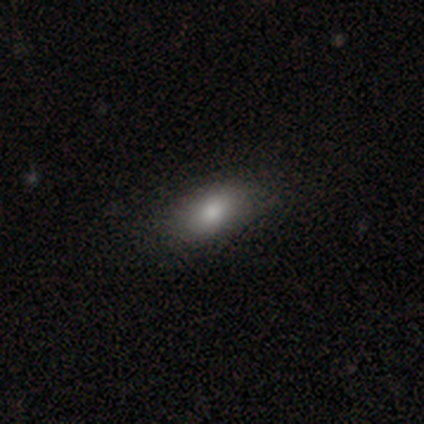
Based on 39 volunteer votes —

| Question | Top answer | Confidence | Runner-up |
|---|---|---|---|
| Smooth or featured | smooth | 82% | star or artifact (10%) |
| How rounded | in between | 91% | cigar-shaped (9%) |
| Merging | none | 89% | minor disturbance (11%) |